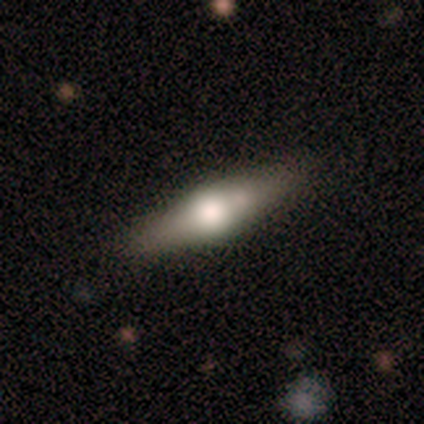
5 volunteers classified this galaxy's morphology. smooth-or-featured: featured or disk: 60% | smooth: 40% | star or artifact: 0%
  disk-edge-on: yes: 100% | no: 0%
    edge-on-bulge: rounded: 100% | boxy: 0% | none: 0%
  merging: none: 60% | minor disturbance: 40% | major disturbance: 0% | merger: 0%